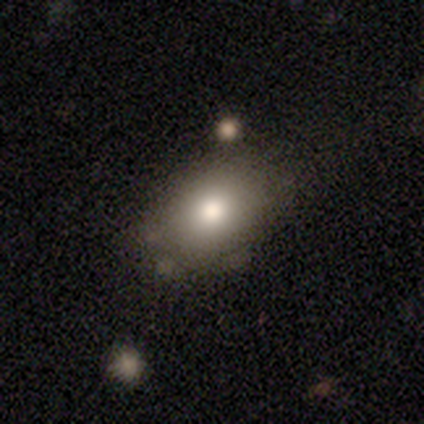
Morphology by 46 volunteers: Smooth or featured: smooth — 76% (featured or disk — 15%)
How rounded: in between — 74% (round — 23%)
Merging: none — 60% (minor disturbance — 24%)